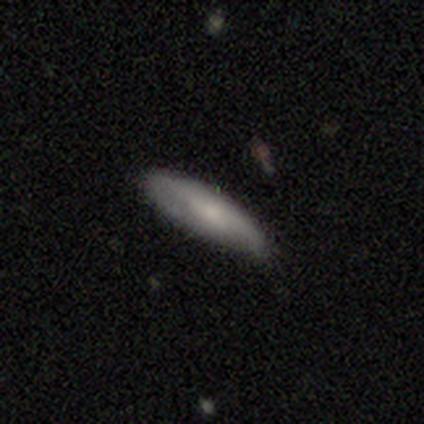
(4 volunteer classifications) Volunteers were most divided on "smooth or featured" (2-way tie): smooth: 50%, featured or disk: 50%, star or artifact: 0%. More confident: how rounded — cigar-shaped (100%); merging — none (75%).